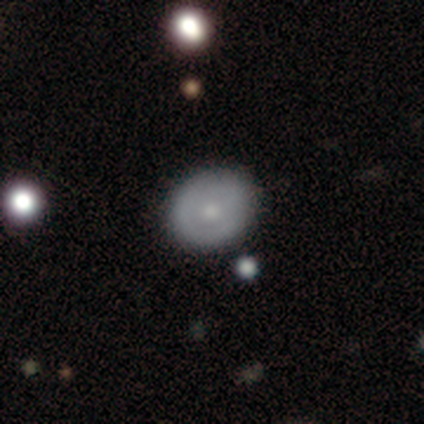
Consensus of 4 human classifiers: Smooth or featured? 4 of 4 (100%) said featured or disk. Edge-on disk? 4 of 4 (100%) said no. Bar? 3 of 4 (75%) said no. Spiral arms? 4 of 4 (100%) said no. Bulge size? 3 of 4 (75%) said small. Merging? 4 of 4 (100%) said none.